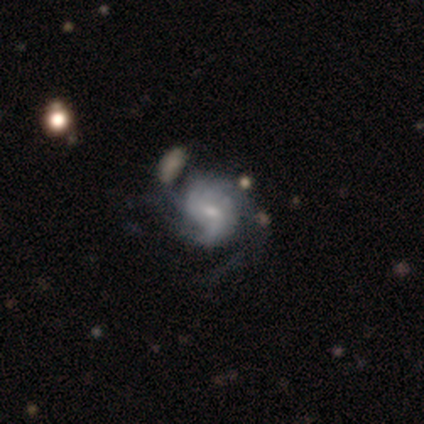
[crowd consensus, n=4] Overall: featured or disk (100%). Edge-on disk: no (100%). Bar: weak (75%). Spiral arms: yes (100%). Spiral arm count: can't tell (75%). Spiral winding: tight (50%, tied with medium). Bulge size: small (75%). Merging: none (50%, tied with merger).